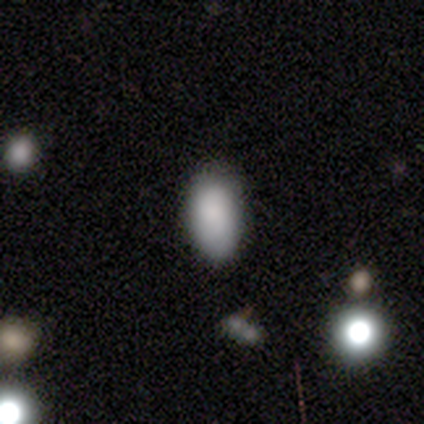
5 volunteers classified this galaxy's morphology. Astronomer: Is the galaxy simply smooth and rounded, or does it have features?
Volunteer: smooth — 60% (runner-up: featured or disk, 40%).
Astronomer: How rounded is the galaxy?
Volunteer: in between — 100%.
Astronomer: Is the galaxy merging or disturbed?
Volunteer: none — 60%.